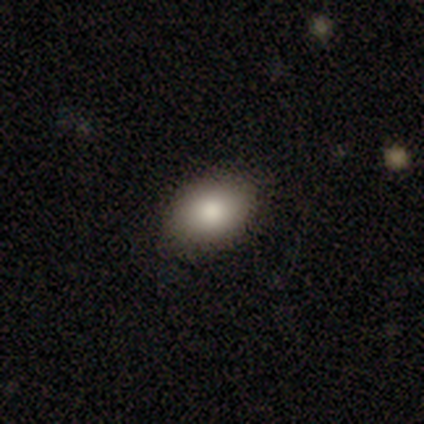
Smooth or featured? 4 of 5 (80%) said smooth. How rounded? 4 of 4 (100%) said in between. Merging? 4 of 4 (100%) said none.